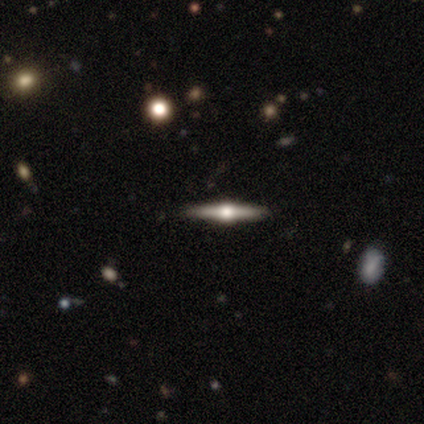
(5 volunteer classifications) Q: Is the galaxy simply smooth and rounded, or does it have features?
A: featured or disk — 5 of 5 (100%).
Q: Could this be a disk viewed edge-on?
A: yes — 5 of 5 (100%).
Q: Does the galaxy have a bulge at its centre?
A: rounded — 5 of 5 (100%).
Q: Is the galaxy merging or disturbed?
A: none — 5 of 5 (100%).